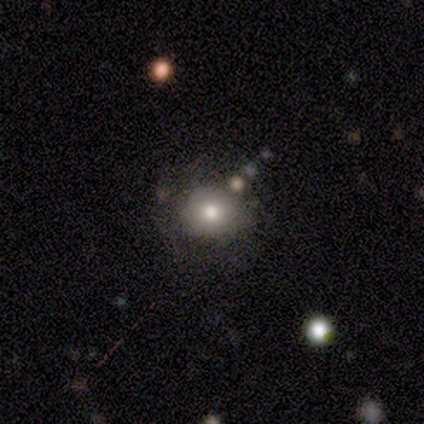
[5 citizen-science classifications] smooth 60%, featured or disk 40%, star or artifact 0%. Down the decision tree: how rounded — round (100%); merging — none (80%).